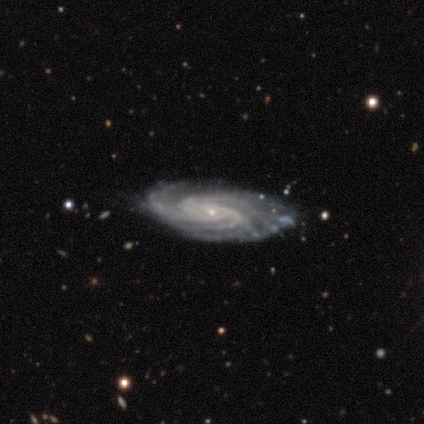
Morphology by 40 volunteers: This appears to be a featured or disk galaxy (92%) with no bar (83%), more than 4 (37%) tight (63%) spiral arms (100%) and a small central bulge (97%). Merging: none (65%).